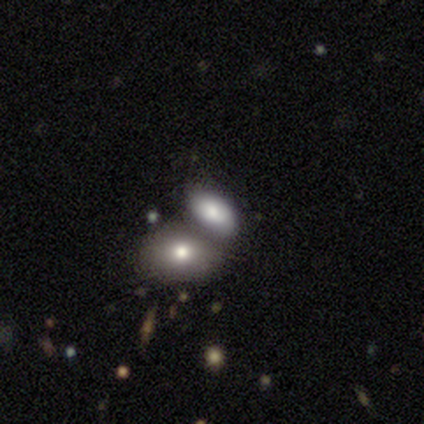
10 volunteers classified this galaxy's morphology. smooth_or_featured: smooth (p=0.80) [alt: featured or disk p=0.10]
how_rounded: in between (p=0.88) [alt: round p=0.12]
merging: none (p=0.56) [alt: merger p=0.44]